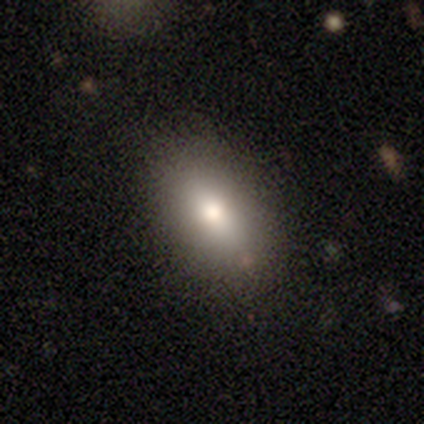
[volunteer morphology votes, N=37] Smooth or featured? 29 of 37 (78%) said smooth. How rounded? 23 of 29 (79%) said in between. Merging? 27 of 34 (79%) said none.